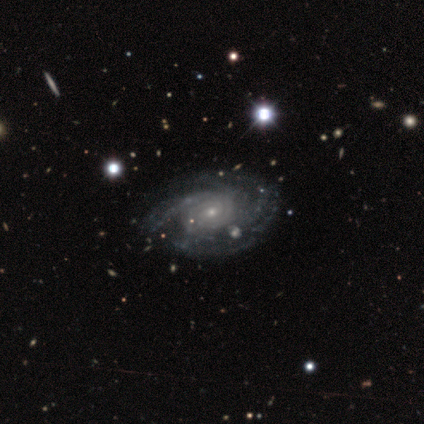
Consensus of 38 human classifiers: Volunteers were most divided on "spiral arm count": 4: 36%, can't tell: 30%, 3: 18%, 2: 9%, more than 4: 6%, 1: 0%. More confident: edge-on disk — no (97%); smooth or featured — featured or disk (95%); spiral arms — yes (94%); bulge size — small (80%); spiral winding — tight (73%); bar — no (63%); merging — none (54%).